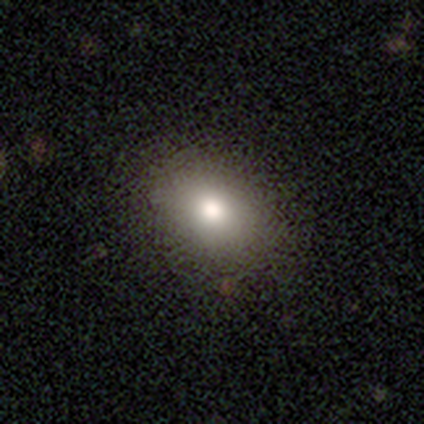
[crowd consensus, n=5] smooth_or_featured: smooth (p=0.40) [tied with: star or artifact p=0.40]
how_rounded: in between (p=1.00)
merging: none (p=1.00)